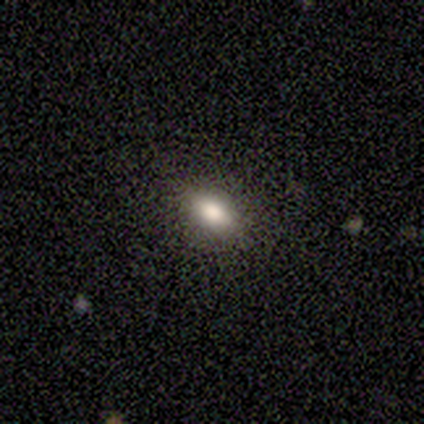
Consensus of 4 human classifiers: Smooth or featured: smooth — 75% (featured or disk — 25%)
How rounded: in between — 100%
Merging: none — 100%